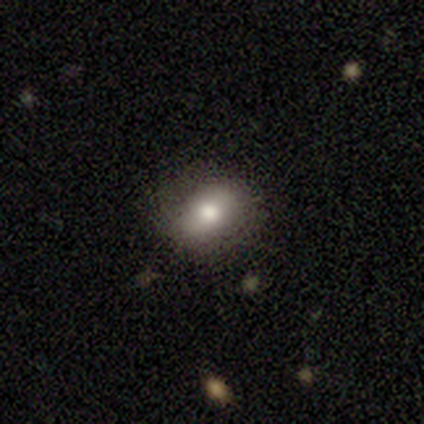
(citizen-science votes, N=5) smooth 80%, featured or disk 20%, star or artifact 0%. Down the decision tree: how rounded — round (50%, tied with in between); merging — none (80%).